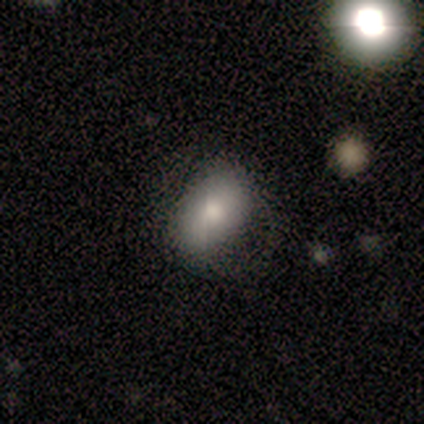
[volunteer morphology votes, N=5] Smooth or featured: smooth — 40% (tied with featured or disk — 40%)
How rounded: round — 50% (tied with in between — 50%)
Merging: none — 75% (minor disturbance — 25%)